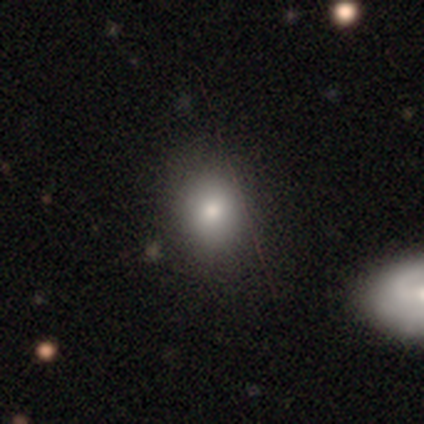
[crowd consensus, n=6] Smooth or featured? smooth (33%, tied with featured or disk and star or artifact)
How rounded? round (50%, tied with in between)
Merging? none (75%)